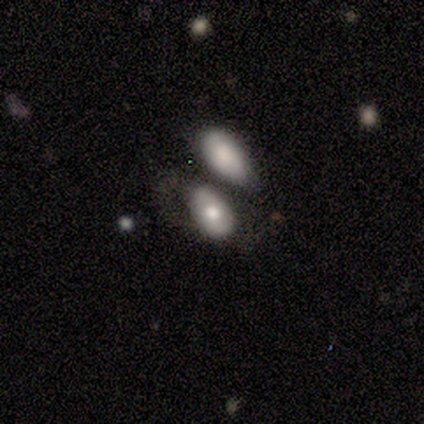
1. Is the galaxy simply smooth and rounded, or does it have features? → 60% smooth, 40% featured or disk, 0% star or artifact.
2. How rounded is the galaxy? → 100% in between, 0% round, 0% cigar-shaped.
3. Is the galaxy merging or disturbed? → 60% merger, 40% none, 0% minor disturbance, 0% major disturbance.